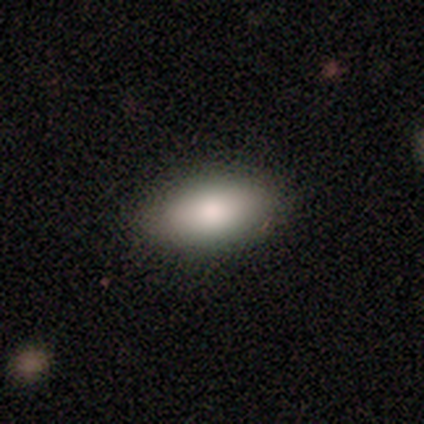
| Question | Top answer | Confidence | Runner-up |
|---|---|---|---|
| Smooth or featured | smooth | 72% | featured or disk (22%) |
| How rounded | in between | 97% | cigar-shaped (3%) |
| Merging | none | 82% | minor disturbance (11%) |